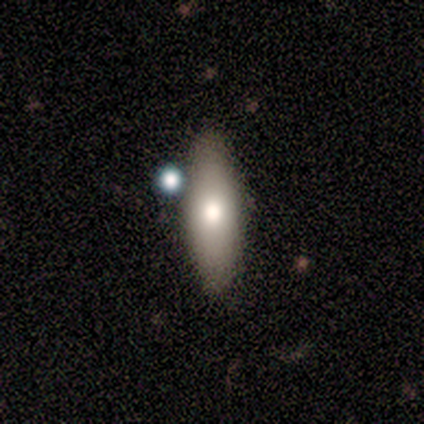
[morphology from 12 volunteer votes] smooth_or_featured: smooth (p=0.67) [alt: featured or disk p=0.33]
how_rounded: in between (p=0.75) [alt: cigar-shaped p=0.25]
merging: none (p=0.50) [alt: minor disturbance p=0.25]